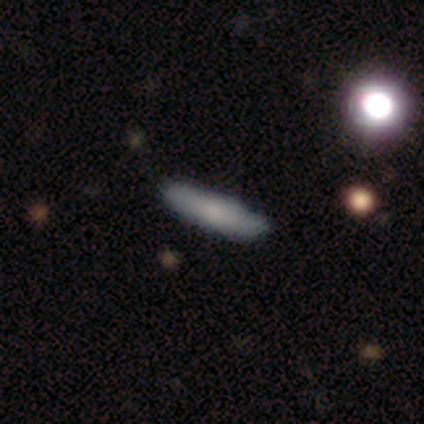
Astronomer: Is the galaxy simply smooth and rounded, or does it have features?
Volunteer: smooth — 80%.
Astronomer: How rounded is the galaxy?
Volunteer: cigar-shaped — 75%.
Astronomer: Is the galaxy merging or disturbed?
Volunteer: none — 80%.